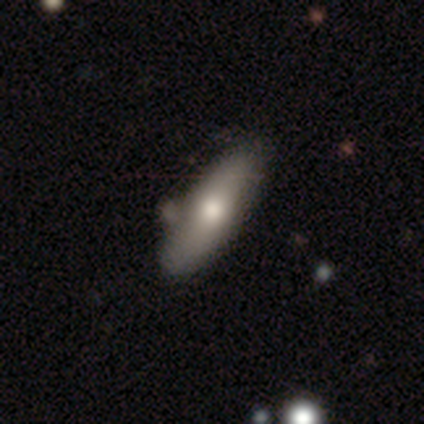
Smooth or featured: featured or disk — 57% (smooth — 43%)
Edge-on disk: yes — 50% (tied with no — 50%)
Edge-on bulge: rounded — 100%
Merging: none — 86% (minor disturbance — 14%)